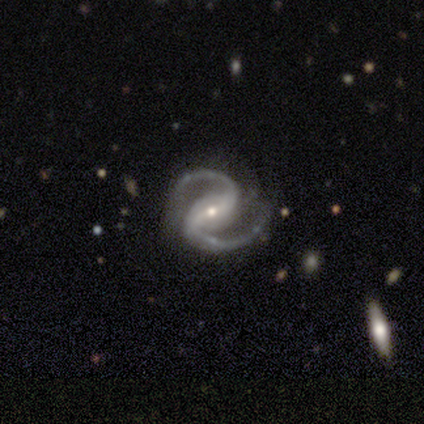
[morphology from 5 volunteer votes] A featured or disk galaxy (100%) with a strong bar (60%), 2 (100%) medium (80%) spiral arms (100%) and a small central bulge (80%).

Vote fractions:
- Smooth or featured? featured or disk: 100% / smooth: 0% / star or artifact: 0%
- Edge-on disk? no: 100% / yes: 0%
- Bar? strong: 60% / weak: 40% / no: 0%
- Spiral arms? yes: 100% / no: 0%
- Spiral winding? medium: 80% / loose: 20% / tight: 0%
- Spiral arm count? 2: 100% / 1: 0% / 3: 0% / 4: 0% / more than 4: 0% / can't tell: 0%
- Bulge size? small: 80% / moderate: 20% / dominant: 0% / large: 0% / none: 0%
- Merging? none: 100% / minor disturbance: 0% / major disturbance: 0% / merger: 0%